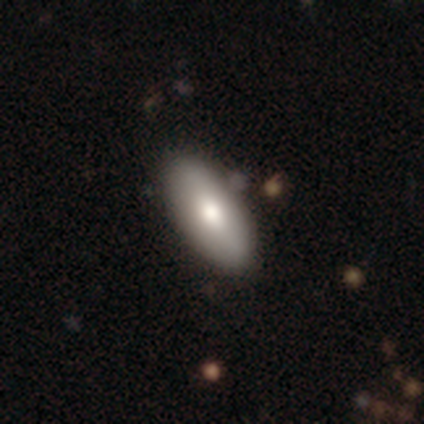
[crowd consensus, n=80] Smooth or featured: smooth — 79% (featured or disk — 16%)
How rounded: in between — 86% (cigar-shaped — 14%)
Merging: none — 43% (merger — 5%)